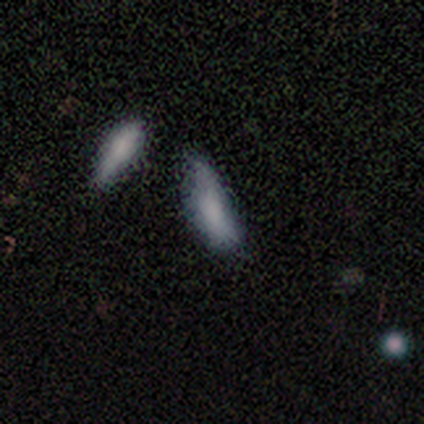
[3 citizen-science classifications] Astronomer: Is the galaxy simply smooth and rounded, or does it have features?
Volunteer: smooth — 67%.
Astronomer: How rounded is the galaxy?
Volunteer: in between — 100%.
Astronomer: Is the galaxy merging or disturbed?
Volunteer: minor disturbance — 67%.